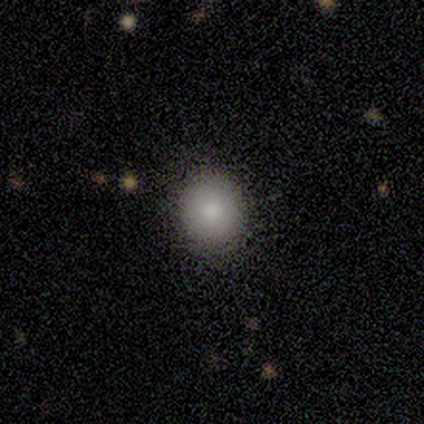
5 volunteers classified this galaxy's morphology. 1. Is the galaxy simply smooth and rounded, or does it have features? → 100% smooth, 0% featured or disk, 0% star or artifact.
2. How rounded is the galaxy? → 80% round, 20% in between, 0% cigar-shaped.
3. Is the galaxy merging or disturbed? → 100% none, 0% minor disturbance, 0% major disturbance, 0% merger.